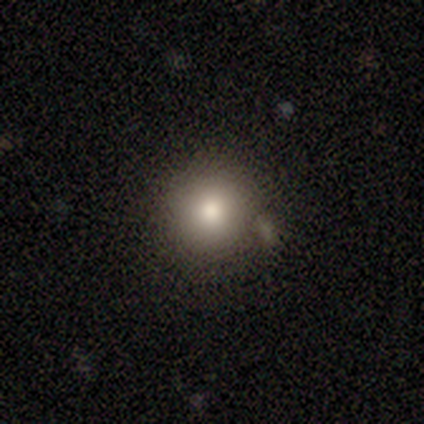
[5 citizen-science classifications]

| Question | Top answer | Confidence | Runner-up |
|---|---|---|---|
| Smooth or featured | smooth | 100% | — |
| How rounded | round | 80% | in between (20%) |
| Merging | none | 40% | tied: minor disturbance (40%) |